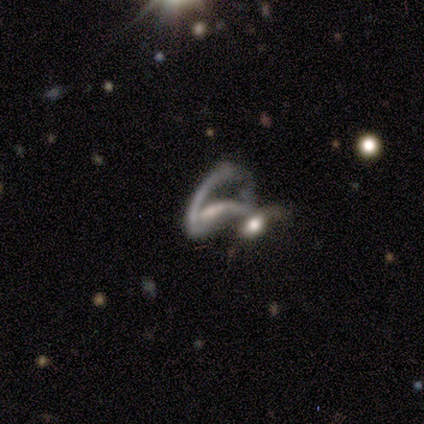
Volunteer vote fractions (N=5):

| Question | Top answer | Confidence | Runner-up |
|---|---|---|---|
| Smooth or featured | featured or disk | 60% | star or artifact (40%) |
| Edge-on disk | no | 100% | — |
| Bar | weak | 67% | no (33%) |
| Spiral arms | yes | 100% | — |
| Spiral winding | loose | 67% | medium (33%) |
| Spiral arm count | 2 | 67% | 1 (33%) |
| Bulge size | dominant | 33% | tied: moderate (33%), small (33%) |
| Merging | merger | 100% | — |